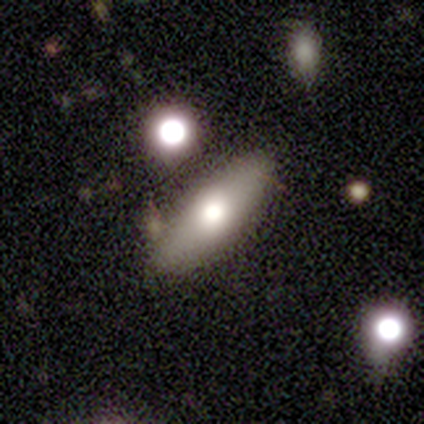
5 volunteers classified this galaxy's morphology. Volunteers were most divided on "bulge size" (2-way tie): large: 50%, moderate: 50%, dominant: 0%, small: 0%, none: 0%. More confident: bar — no (100%); spiral arms — no (100%); merging — none (100%); edge-on disk — no (67%); smooth or featured — featured or disk (60%).